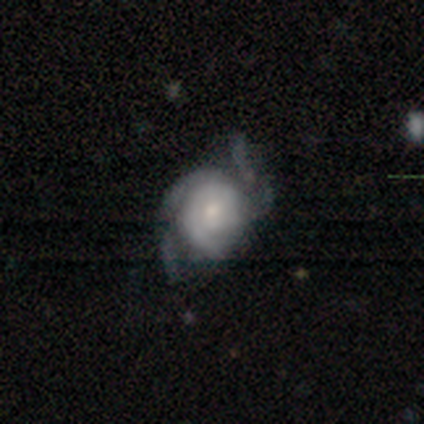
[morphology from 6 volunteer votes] featured or disk 100%, smooth 0%, star or artifact 0%. Down the decision tree: edge-on disk — no (83%); bar — no (60%); spiral arms — yes (100%); spiral arm count — 3 (60%); spiral winding — medium (60%); bulge size — moderate (60%); merging — major disturbance (50%).